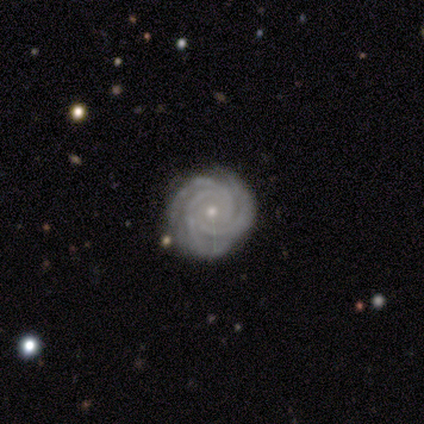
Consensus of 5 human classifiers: Morphology: type=featured or disk (100%); edge-on=no (100%); bar=no (80%); spiral arms=yes (100%); winding=tight (100%); arm count=3 (100%); bulge=small (60%); merging=none (80%).